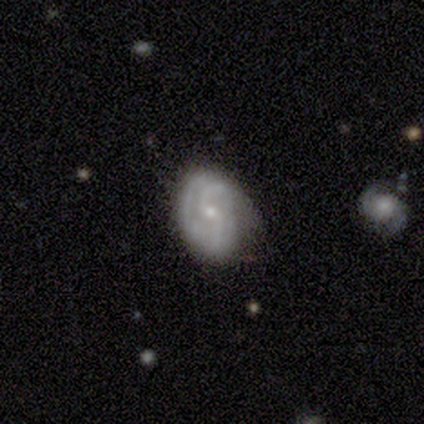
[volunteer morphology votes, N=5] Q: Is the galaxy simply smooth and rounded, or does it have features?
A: featured or disk — 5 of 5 (100%).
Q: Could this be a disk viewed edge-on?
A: no — 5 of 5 (100%).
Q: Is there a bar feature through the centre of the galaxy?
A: no — 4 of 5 (80%).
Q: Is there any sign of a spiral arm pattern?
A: yes — 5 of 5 (100%).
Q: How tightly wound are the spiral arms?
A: loose — 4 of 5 (80%).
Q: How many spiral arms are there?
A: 2 — 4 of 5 (80%).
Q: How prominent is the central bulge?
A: small — 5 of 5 (100%).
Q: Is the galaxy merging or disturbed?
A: none — 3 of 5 (60%).